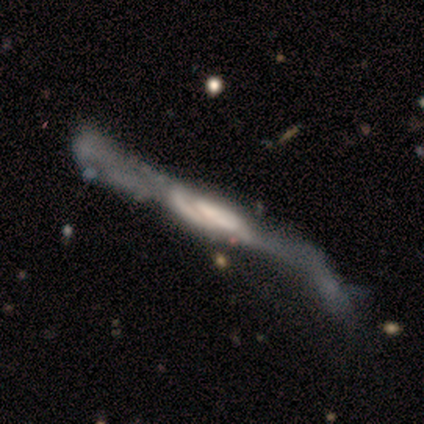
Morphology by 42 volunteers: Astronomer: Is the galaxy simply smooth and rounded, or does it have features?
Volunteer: featured or disk — 74%.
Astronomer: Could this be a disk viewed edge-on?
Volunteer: no — 52% (runner-up: yes, 48%).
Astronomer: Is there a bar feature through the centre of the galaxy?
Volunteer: no — 69%.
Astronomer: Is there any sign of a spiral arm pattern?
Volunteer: yes — 69%.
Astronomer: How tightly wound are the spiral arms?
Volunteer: loose — 64%.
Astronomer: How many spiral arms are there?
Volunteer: can't tell — 45% (runner-up: 2, 36%).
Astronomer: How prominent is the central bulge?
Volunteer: none — 50%.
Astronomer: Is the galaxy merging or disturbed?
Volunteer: major disturbance — 62%.